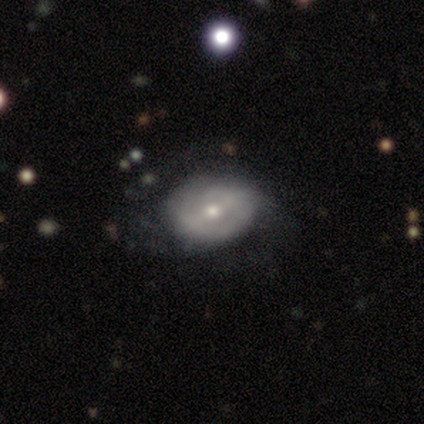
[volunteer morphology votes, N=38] A featured or disk galaxy (55%) with a strong bar (37%, tied with no), no spiral arms (53%) and a moderate central bulge (58%).

Vote fractions:
- Smooth or featured? featured or disk: 55% / smooth: 29% / star or artifact: 16%
- Edge-on disk? no: 90% / yes: 10%
- Bar? strong: 37% (tied) / no: 37% (tied) / weak: 26%
- Spiral arms? no: 53% / yes: 47%
- Bulge size? moderate: 58% / small: 42% / dominant: 0% / large: 0% / none: 0%
- Merging? none: 47% (tied) / minor disturbance: 47% (tied) / major disturbance: 6% / merger: 0%